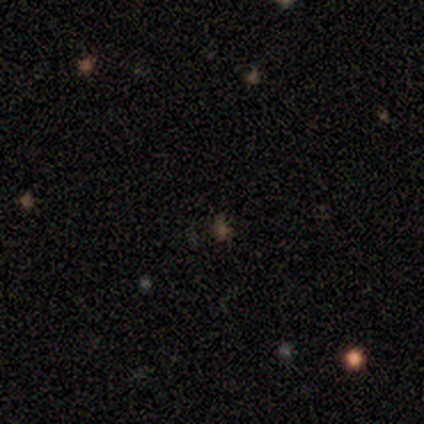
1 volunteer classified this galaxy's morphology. A star or artifact, not a galaxy (100%).

Vote fractions:
- Smooth or featured? star or artifact: 100% / smooth: 0% / featured or disk: 0%